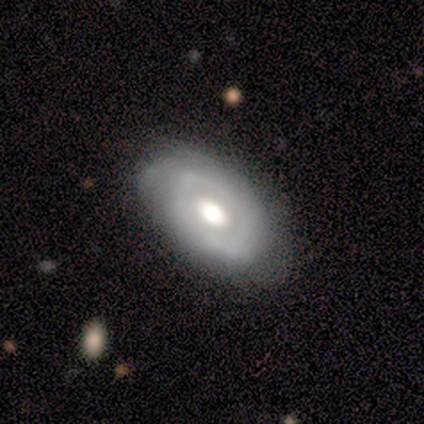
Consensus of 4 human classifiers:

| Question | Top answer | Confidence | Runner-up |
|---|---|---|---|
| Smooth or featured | featured or disk | 100% | — |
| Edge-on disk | no | 100% | — |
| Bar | no | 75% | strong (25%) |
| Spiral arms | yes | 50% | tied: no (50%) |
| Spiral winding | tight | 100% | — |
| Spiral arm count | can't tell | 100% | — |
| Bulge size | moderate | 75% | large (25%) |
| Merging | none | 75% | minor disturbance (25%) |